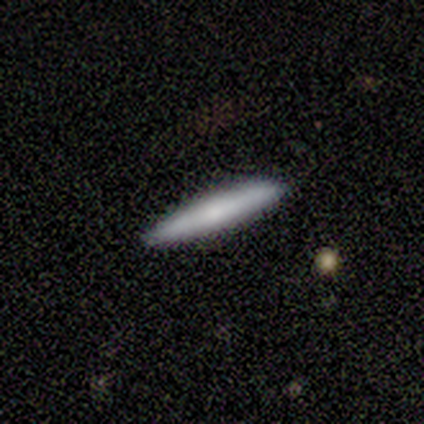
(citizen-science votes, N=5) A smooth galaxy with no disk features (100%) that is cigar-shaped (80%). Merging: none (100%).